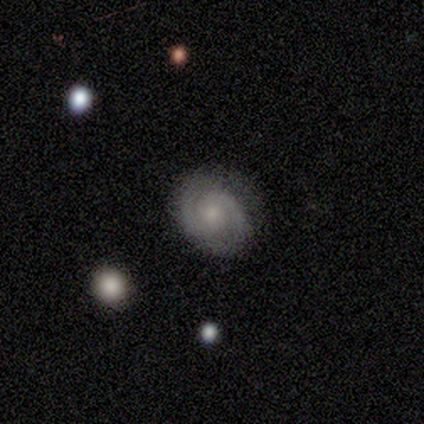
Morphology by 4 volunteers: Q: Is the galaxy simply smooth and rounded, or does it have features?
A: featured or disk — 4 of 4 (100%).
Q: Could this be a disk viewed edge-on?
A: no — 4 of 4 (100%).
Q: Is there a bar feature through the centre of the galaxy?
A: no — 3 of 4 (75%).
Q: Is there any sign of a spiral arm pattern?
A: yes — 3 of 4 (75%).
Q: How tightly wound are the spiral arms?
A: tight — 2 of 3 (67%).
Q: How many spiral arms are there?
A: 2 — 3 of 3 (100%).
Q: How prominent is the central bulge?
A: small — 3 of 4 (75%).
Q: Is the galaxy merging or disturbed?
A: none — 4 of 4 (100%).